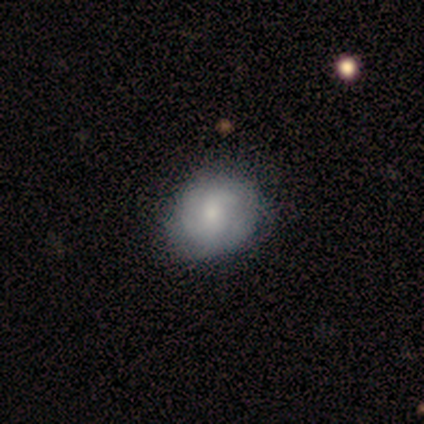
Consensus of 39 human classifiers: This is possibly a featured or disk galaxy (59%). It is clearly not viewed edge-on (100%). Bar: likely no (65%). Spiral arm pattern: clearly yes (83%). Spiral arm count: possibly 2 (47%). Spiral winding: marginally tight (42%). Central bulge: possibly small (57%). Merging: possibly none (46%).